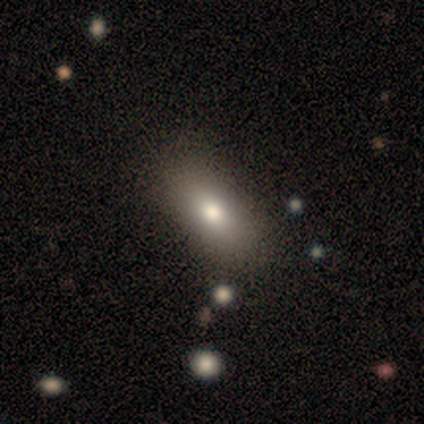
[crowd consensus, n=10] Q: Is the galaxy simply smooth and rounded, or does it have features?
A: smooth — 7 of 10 (70%).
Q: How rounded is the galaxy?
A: in between — 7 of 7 (100%).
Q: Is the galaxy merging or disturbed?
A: none — 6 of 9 (67%).